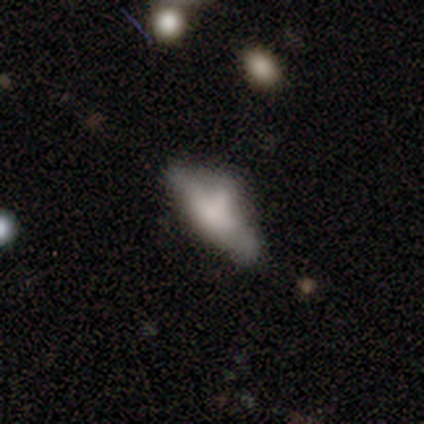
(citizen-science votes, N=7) featured or disk 57%, smooth 43%, star or artifact 0%. Down the decision tree: edge-on disk — yes (50%, tied with no); edge-on bulge — boxy (100%); merging — none (43%).